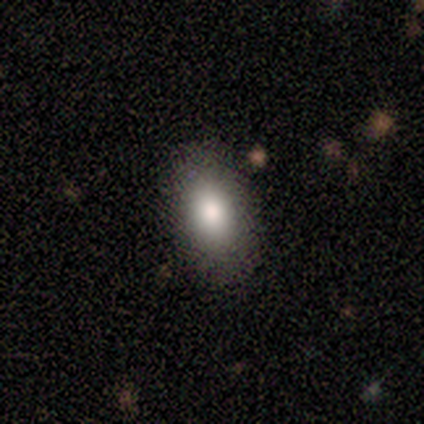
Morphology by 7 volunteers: Smooth or featured? 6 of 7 (86%) said smooth. How rounded? 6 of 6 (100%) said in between. Merging? 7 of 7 (100%) said none.